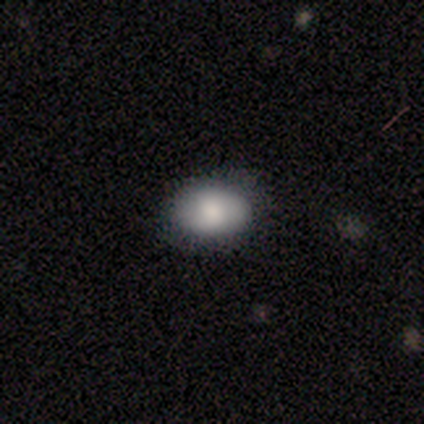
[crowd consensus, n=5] This appears to be a smooth galaxy with no disk features (60%) that is in between round and cigar-shaped (67%). Merging: none (50%, tied with minor disturbance).